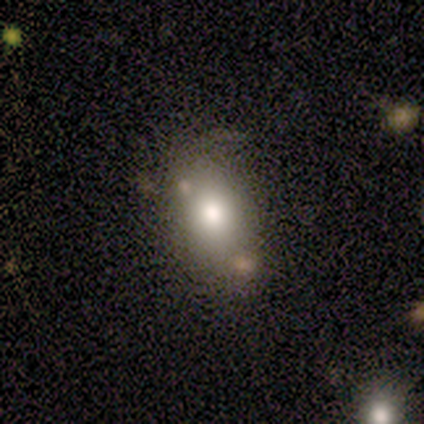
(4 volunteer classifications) Smooth or featured? 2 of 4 (50%, tied with featured or disk) said smooth. How rounded? 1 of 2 (50%, tied with in between) said round. Merging? 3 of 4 (75%) said none.